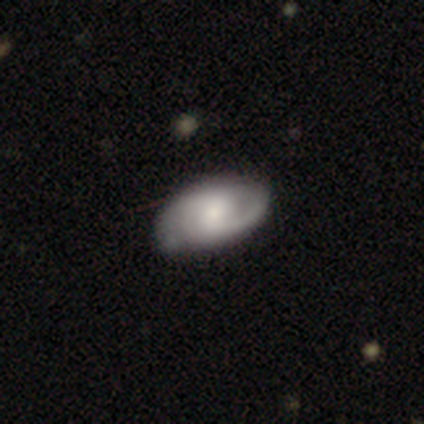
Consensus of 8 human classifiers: This appears to be a featured or disk galaxy (75%) with a weak bar (50%, tied with no), 2 (67%) medium (67%) spiral arms (100%) and a small central bulge (50%). Merging: none (100%).